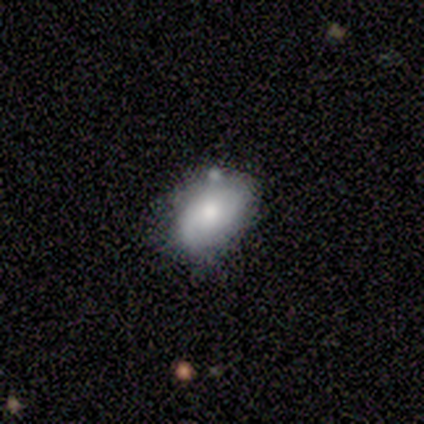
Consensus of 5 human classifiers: Smooth or featured?
  - smooth: 100% *
  - featured or disk: 0%
  - star or artifact: 0%
How rounded?
  - in between: 80% *
  - round: 20%
  - cigar-shaped: 0%
Merging?
  - minor disturbance: 80% *
  - none: 20%
  - major disturbance: 0%
  - merger: 0%